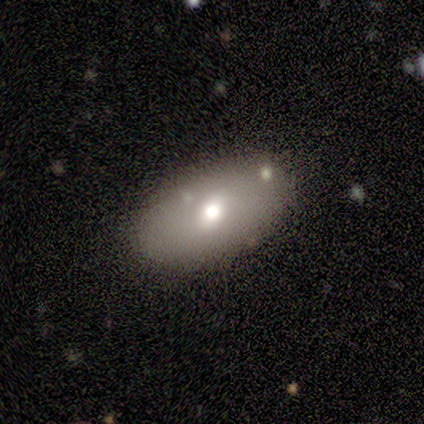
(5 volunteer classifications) smooth-or-featured: featured or disk: 60% | smooth: 40% | star or artifact: 0%
  disk-edge-on: no: 67% | yes: 33%
    bar: weak: 50% (tied) | no: 50% (tied) | strong: 0%
    has-spiral-arms: no: 100% | yes: 0%
    bulge-size: moderate: 50% (tied) | small: 50% (tied) | dominant: 0% | large: 0% | none: 0%
  merging: none: 80% | minor disturbance: 20% | major disturbance: 0% | merger: 0%